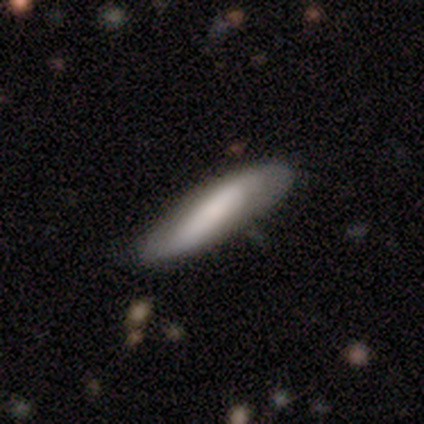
smooth 80%, featured or disk 20%, star or artifact 0%. Down the decision tree: how rounded — in between (50%, tied with cigar-shaped); merging — none (80%).